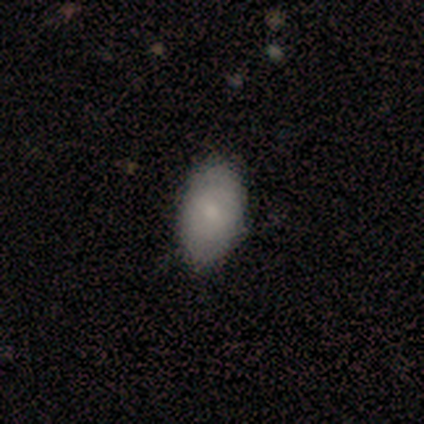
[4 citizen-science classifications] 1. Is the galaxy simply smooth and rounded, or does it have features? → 75% smooth, 25% featured or disk, 0% star or artifact.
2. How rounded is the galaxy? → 100% in between, 0% round, 0% cigar-shaped.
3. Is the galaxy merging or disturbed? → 75% none, 25% minor disturbance, 0% major disturbance, 0% merger.